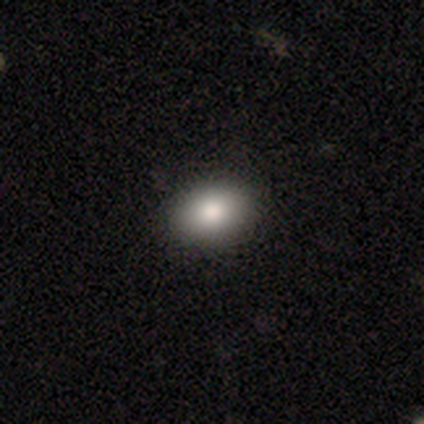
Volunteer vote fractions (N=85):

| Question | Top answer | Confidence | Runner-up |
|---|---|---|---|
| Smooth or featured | smooth | 82% | star or artifact (12%) |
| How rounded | in between | 80% | round (20%) |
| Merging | none | 91% | minor disturbance (9%) |